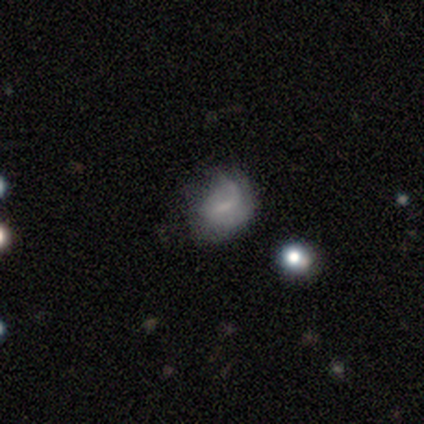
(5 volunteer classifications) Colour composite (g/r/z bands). It shows a featured or disk galaxy (60%) with no bar (67%), no spiral arms (67%) and a small central bulge (67%). Merging: none (40%, tied with major disturbance).